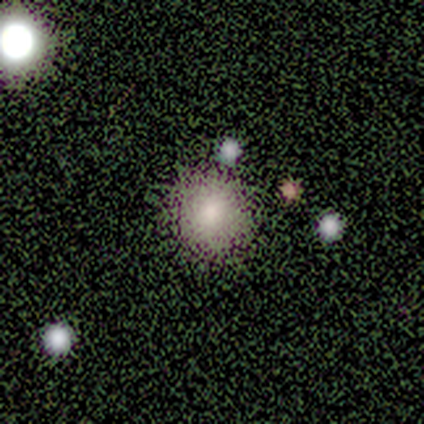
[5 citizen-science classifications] Smooth or featured: smooth — 60% (featured or disk — 20%)
How rounded: round — 100%
Merging: none — 75% (major disturbance — 25%)